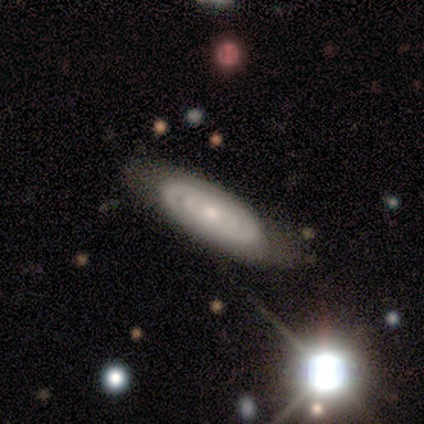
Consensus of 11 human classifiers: This appears to be a featured or disk galaxy (91%) with no bar (78%), tight (86%) spiral arms (78%) and a small central bulge (67%). Merging: none (82%).